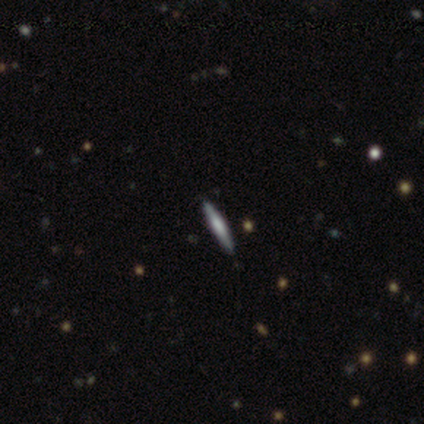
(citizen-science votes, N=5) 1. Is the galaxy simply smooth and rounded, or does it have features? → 80% featured or disk, 20% smooth, 0% star or artifact.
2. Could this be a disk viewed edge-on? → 75% yes, 25% no.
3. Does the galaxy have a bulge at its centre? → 100% boxy, 0% none, 0% rounded.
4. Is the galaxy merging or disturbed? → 100% none, 0% minor disturbance, 0% major disturbance, 0% merger.